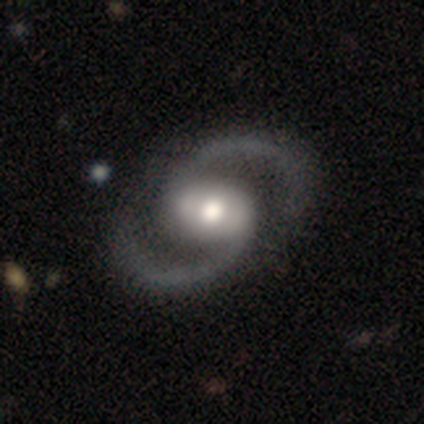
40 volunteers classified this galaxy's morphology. Volunteers were most divided on "bar": weak: 39%, strong: 37%, no: 24%. Remaining: edge-on disk — no (100%); spiral arms — yes (97%); spiral arm count — 2 (97%); smooth or featured — featured or disk (95%); bulge size — moderate (66%); merging — none (62%); spiral winding — medium (43%).